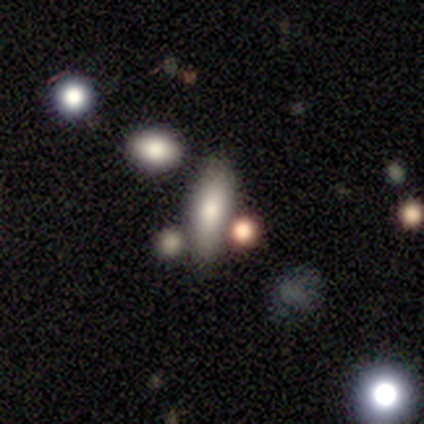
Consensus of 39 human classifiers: This is possibly a smooth galaxy (59%). How rounded: possibly in between (48%, tied with cigar-shaped). Merging: possibly none (59%).